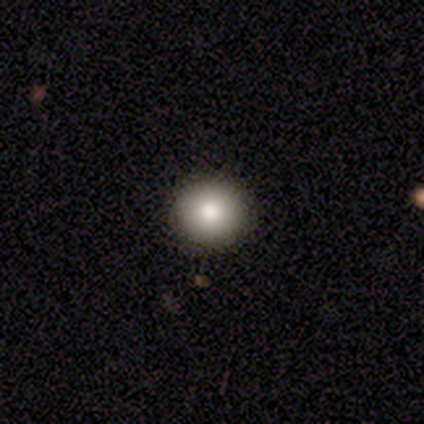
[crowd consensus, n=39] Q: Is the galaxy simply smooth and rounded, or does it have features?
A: smooth — 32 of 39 (82%).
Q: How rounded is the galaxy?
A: round — 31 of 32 (97%).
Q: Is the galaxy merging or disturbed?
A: none — 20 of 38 (53%).